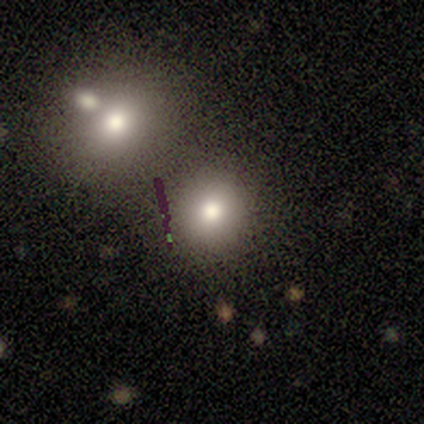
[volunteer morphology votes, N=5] Smooth or featured? 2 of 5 (40%, tied with star or artifact) said smooth. How rounded? 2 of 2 (100%) said round. Merging? 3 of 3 (100%) said none.